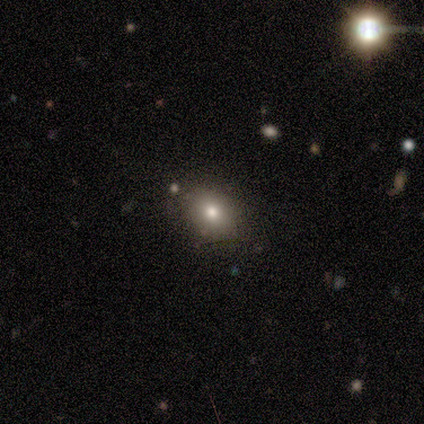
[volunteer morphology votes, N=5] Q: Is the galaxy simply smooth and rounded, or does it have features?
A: smooth — 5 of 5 (100%).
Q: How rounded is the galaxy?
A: round — 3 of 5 (60%).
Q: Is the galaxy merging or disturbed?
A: none — 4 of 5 (80%).